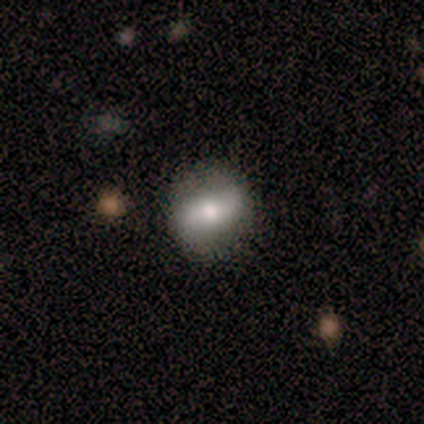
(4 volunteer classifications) Smooth or featured?
  - smooth: 75% *
  - featured or disk: 25%
  - star or artifact: 0%
How rounded?
  - in between: 67% *
  - round: 33%
  - cigar-shaped: 0%
Merging?
  - none: 50% * (tied)
  - minor disturbance: 50% * (tied)
  - major disturbance: 0%
  - merger: 0%